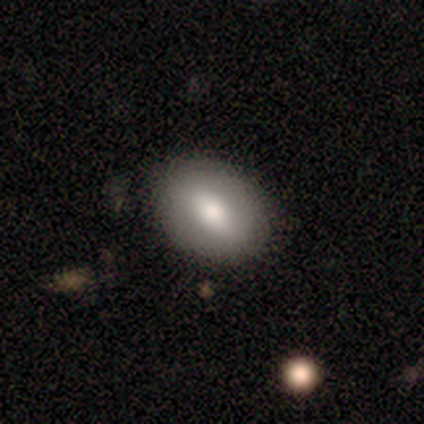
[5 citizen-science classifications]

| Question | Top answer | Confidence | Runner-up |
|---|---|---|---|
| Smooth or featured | smooth | 100% | — |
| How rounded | in between | 80% | round (20%) |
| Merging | none | 100% | — |